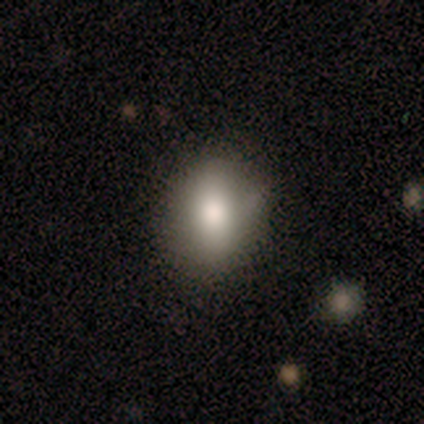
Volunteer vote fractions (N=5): Volunteers were most divided on "smooth or featured": smooth: 60%, featured or disk: 40%, star or artifact: 0%. More confident: how rounded — round (100%); merging — none (60%).